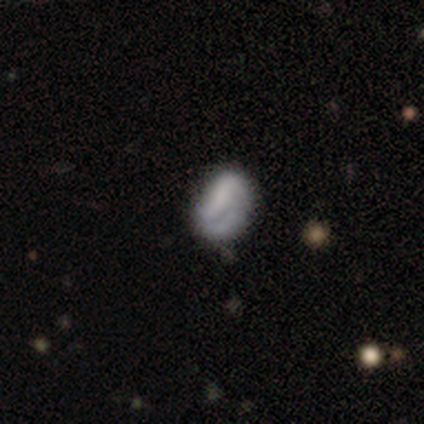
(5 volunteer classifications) This appears to be a featured or disk galaxy (60%) with a strong bar (67%), no spiral arms (67%) and a large central bulge (33%, tied with moderate and none). Merging: none (75%).